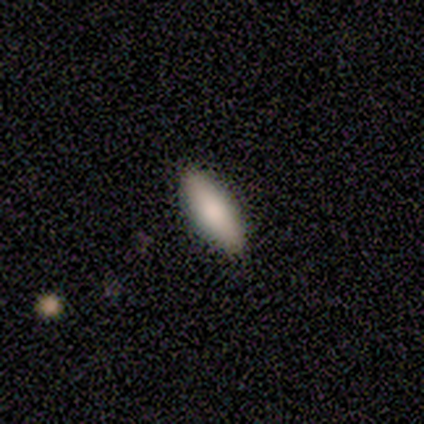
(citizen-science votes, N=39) Volunteers were most divided on "how rounded": in between: 76%, cigar-shaped: 24%, round: 0%. More confident: smooth or featured — smooth (85%); merging — none (65%).